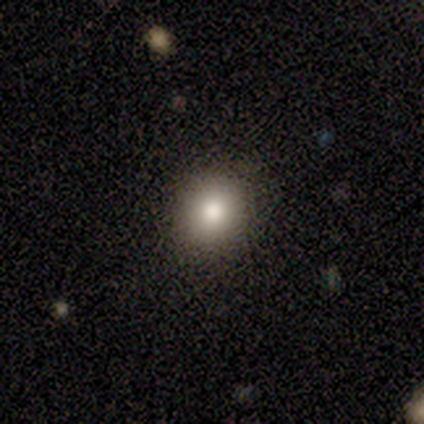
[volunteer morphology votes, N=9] smooth_or_featured: smooth (p=0.78) [alt: featured or disk p=0.11]
how_rounded: round (p=0.86) [alt: in between p=0.14]
merging: none (p=0.88) [alt: minor disturbance p=0.12]